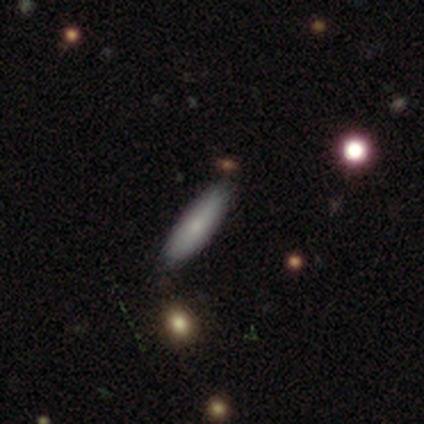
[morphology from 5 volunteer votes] smooth-or-featured: smooth: 80% | star or artifact: 20% | featured or disk: 0%
  how-rounded: in between: 100% | round: 0% | cigar-shaped: 0%
  merging: none: 75% | merger: 25% | minor disturbance: 0% | major disturbance: 0%